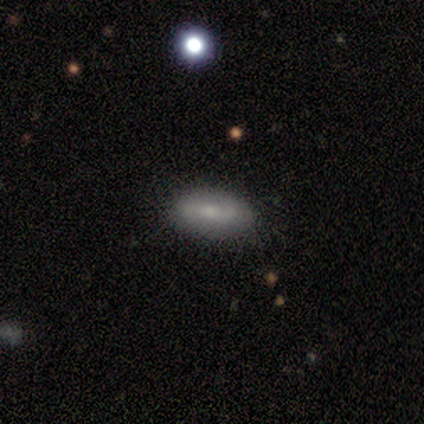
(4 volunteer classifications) Overall: smooth (75%). How rounded: in between (100%). Merging: none (100%).